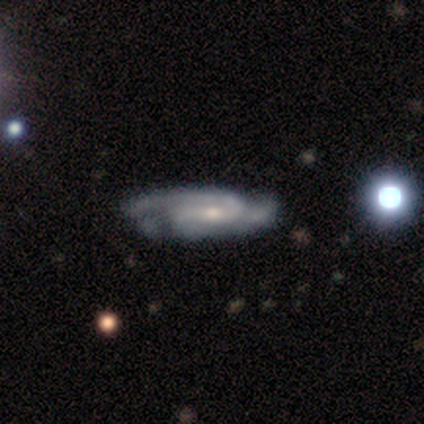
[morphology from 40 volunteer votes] type=featured or disk (92%); edge-on=no (97%); bar=no (53%); spiral arms=yes (83%); winding=medium (43%); arm count=2 (77%); bulge=moderate (56%); merging=none (39%).